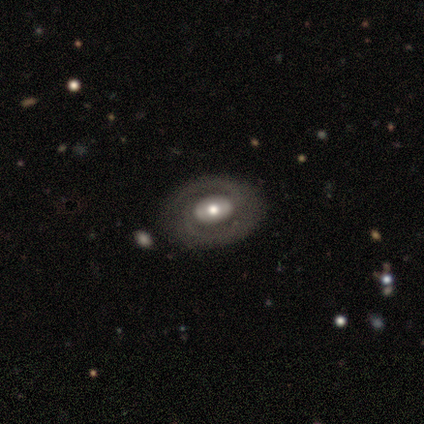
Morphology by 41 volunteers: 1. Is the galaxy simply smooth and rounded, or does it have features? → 80% featured or disk, 20% smooth, 0% star or artifact.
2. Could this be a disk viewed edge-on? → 100% no, 0% yes.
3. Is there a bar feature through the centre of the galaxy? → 61% no, 21% weak, 18% strong.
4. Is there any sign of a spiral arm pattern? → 58% yes, 42% no.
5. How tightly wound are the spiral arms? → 58% tight, 37% medium, 5% loose.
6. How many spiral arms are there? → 95% 2, 5% can't tell, 0% 1, 0% 3, 0% 4, 0% more than 4.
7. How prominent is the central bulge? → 70% moderate, 15% large, 15% small, 0% dominant, 0% none.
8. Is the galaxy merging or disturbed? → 76% none, 10% major disturbance, 7% minor disturbance, 7% merger.